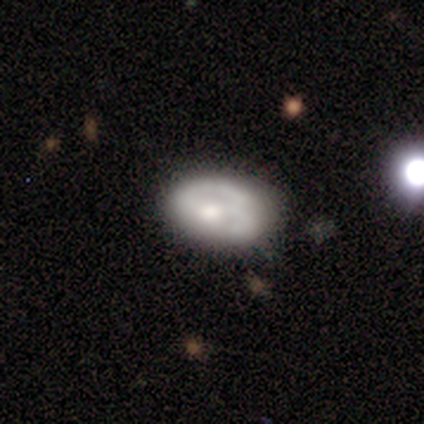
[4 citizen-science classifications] smooth_or_featured: smooth (p=0.50) [tied with: featured or disk p=0.50]
how_rounded: in between (p=1.00)
merging: none (p=0.75) [alt: major disturbance p=0.25]